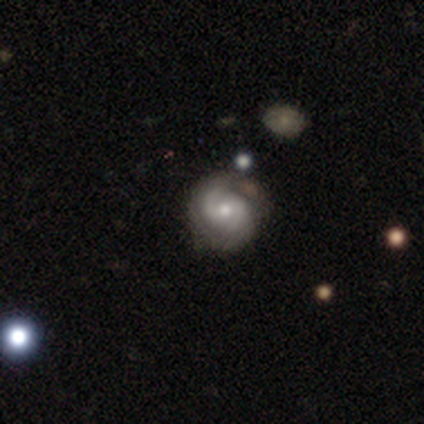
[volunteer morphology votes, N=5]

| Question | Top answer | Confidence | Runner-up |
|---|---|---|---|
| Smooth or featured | featured or disk | 100% | — |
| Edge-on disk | no | 100% | — |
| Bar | no | 60% | weak (40%) |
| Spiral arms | yes | 100% | — |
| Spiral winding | medium | 80% | loose (20%) |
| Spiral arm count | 2 | 60% | can't tell (40%) |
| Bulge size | small | 60% | moderate (40%) |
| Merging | none | 60% | minor disturbance (40%) |